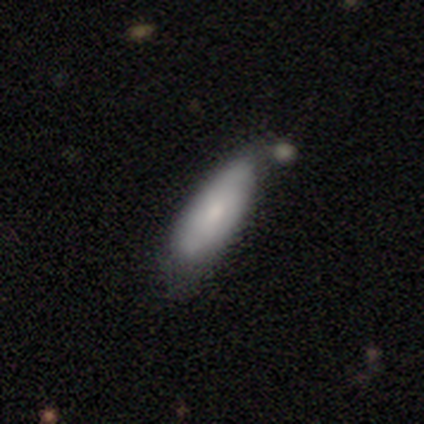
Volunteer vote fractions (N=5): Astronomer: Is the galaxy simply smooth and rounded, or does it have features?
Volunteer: smooth — 100%.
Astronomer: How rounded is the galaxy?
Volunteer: in between — 80%.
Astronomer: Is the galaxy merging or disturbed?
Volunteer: none — 40%, tied with minor disturbance at 40%.